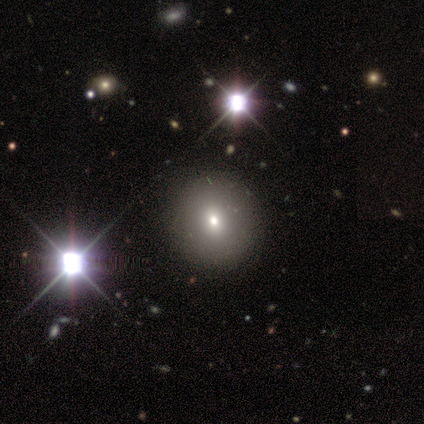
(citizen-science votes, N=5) Volunteers were most divided on "smooth or featured": smooth: 60%, star or artifact: 40%, featured or disk: 0%. More confident: how rounded — round (100%); merging — none (100%).